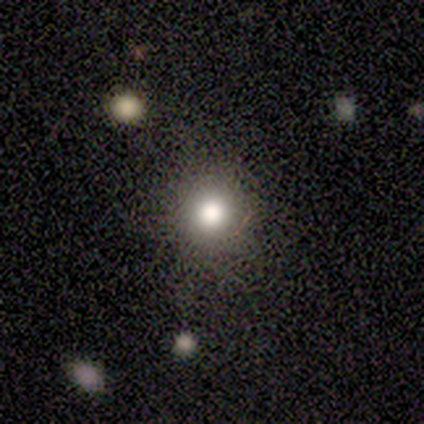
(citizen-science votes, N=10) Smooth or featured? 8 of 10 (80%) said smooth. How rounded? 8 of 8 (100%) said round. Merging? 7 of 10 (70%) said none.